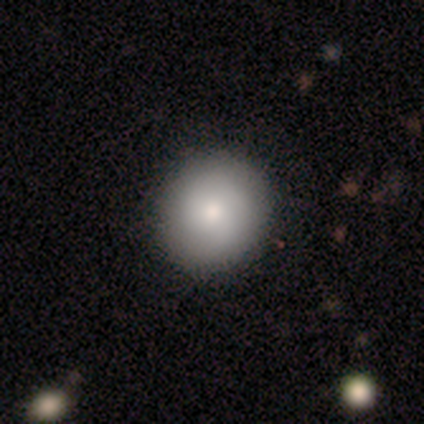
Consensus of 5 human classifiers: Overall: smooth (60%; featured or disk 40%). How rounded: round (100%). Merging: none (60%; minor disturbance 40%).